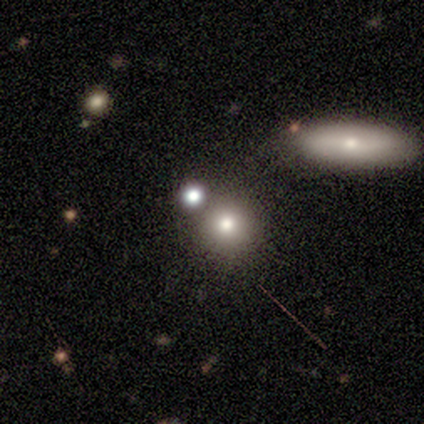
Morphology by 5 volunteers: smooth 40% (tied), featured or disk 40% (tied), star or artifact 20%. Down the decision tree: how rounded — round (100%); merging — none (25%, tied with minor disturbance, major disturbance and merger).